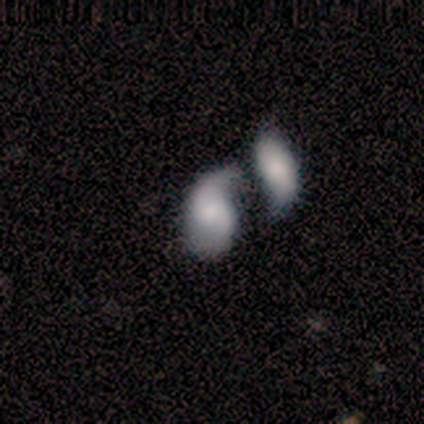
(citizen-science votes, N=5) Smooth or featured?
  - smooth: 40% * (tied)
  - star or artifact: 40% * (tied)
  - featured or disk: 20%
How rounded?
  - in between: 100% *
  - round: 0%
  - cigar-shaped: 0%
Merging?
  - merger: 67% *
  - minor disturbance: 33%
  - none: 0%
  - major disturbance: 0%